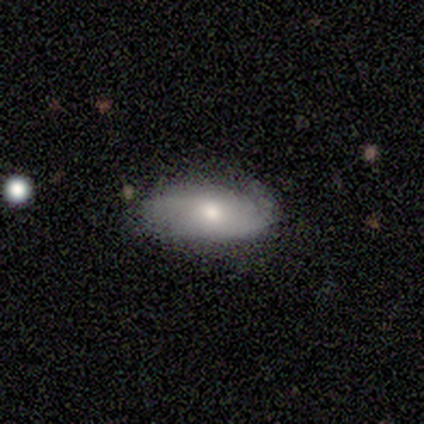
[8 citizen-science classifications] This is possibly a smooth galaxy (50%, tied with featured or disk). How rounded: clearly in between (100%). Merging: likely minor disturbance (62%).